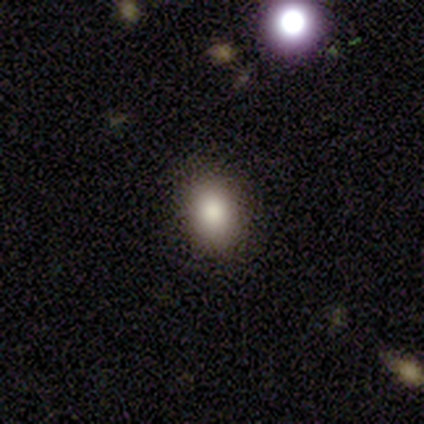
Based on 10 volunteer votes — smooth_or_featured: smooth (p=0.80) [alt: star or artifact p=0.20]
how_rounded: in between (p=1.00)
merging: none (p=0.88) [alt: minor disturbance p=0.12]